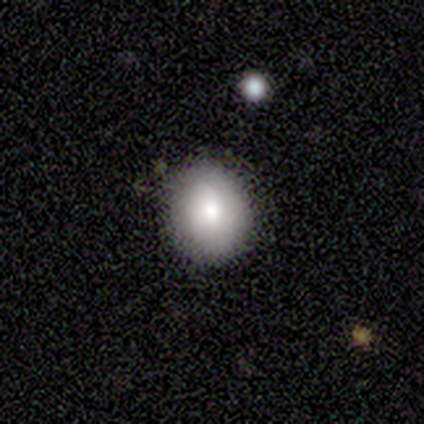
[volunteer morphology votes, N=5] smooth 100%, featured or disk 0%, star or artifact 0%. Down the decision tree: how rounded — in between (60%); merging — none (80%).